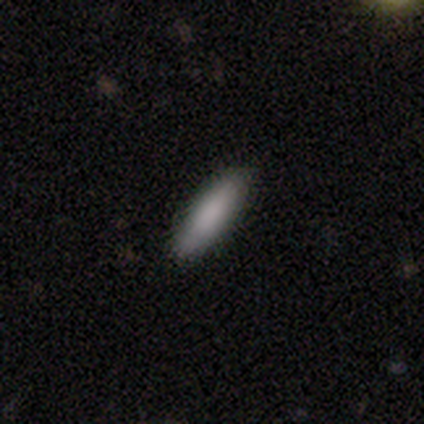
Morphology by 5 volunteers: This is clearly a smooth galaxy (100%). How rounded: clearly cigar-shaped (100%). Merging: clearly none (100%).